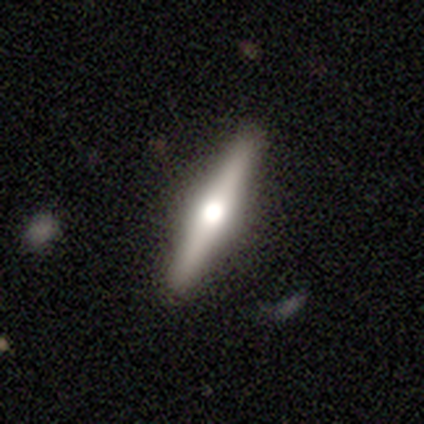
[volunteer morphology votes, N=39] type=featured or disk (67%); edge-on=yes (88%); edge-on bulge=rounded (100%); merging=none (84%).